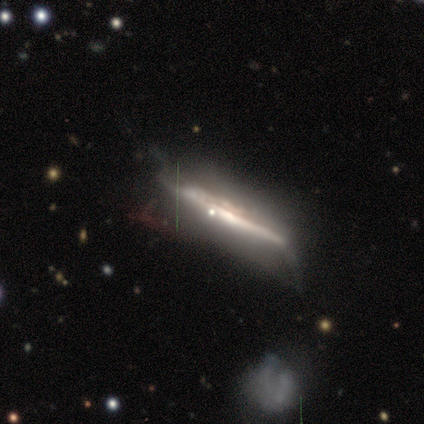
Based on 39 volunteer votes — Volunteers were most divided on "merging": none: 54%, minor disturbance: 30%, major disturbance: 14%, merger: 3%. More confident: edge-on disk — yes (94%); smooth or featured — featured or disk (79%); edge-on bulge — none (66%).